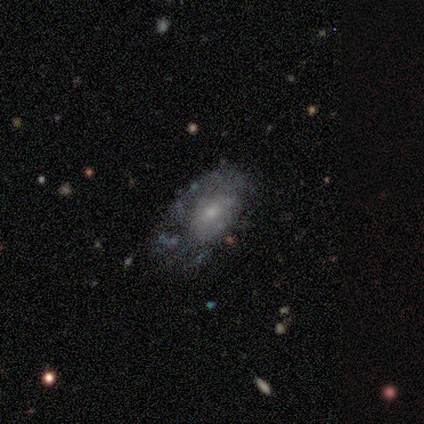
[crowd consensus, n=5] Overall: featured or disk (60%; smooth 40%). Edge-on disk: no (100%). Bar: weak (67%; no 33%). Spiral arms: no (67%; yes 33%). Bulge size: moderate (67%; small 33%). Merging: minor disturbance (80%).